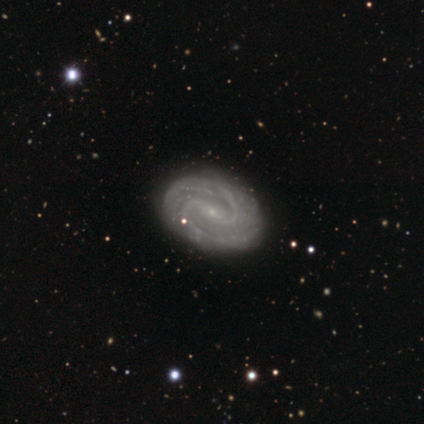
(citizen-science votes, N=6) smooth-or-featured: featured or disk: 83% | smooth: 17% | star or artifact: 0%
  disk-edge-on: no: 100% | yes: 0%
    bar: no: 60% | weak: 40% | strong: 0%
    has-spiral-arms: yes: 100% | no: 0%
      spiral-winding: medium: 60% | tight: 40% | loose: 0%
      spiral-arm-count: 2: 100% | 1: 0% | 3: 0% | 4: 0% | more than 4: 0% | can't tell: 0%
    bulge-size: small: 100% | dominant: 0% | large: 0% | moderate: 0% | none: 0%
  merging: none: 100% | minor disturbance: 0% | major disturbance: 0% | merger: 0%